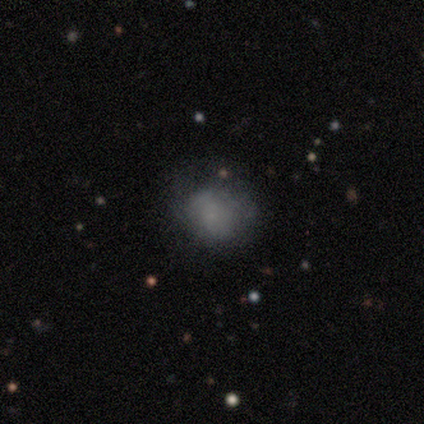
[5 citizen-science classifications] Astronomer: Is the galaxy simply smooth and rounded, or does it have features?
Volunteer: smooth — 80%.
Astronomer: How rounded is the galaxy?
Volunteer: round — 50%, tied with in between at 50%.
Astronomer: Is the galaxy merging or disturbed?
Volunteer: none — 40%, tied with minor disturbance at 40%.